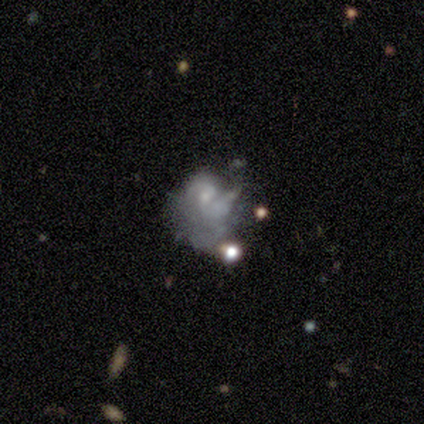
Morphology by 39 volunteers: This appears to be a featured or disk galaxy (82%) with no bar (74%), 2 (56%) medium (44%) spiral arms (58%) and a small central bulge (45%). Merging: major disturbance (54%).